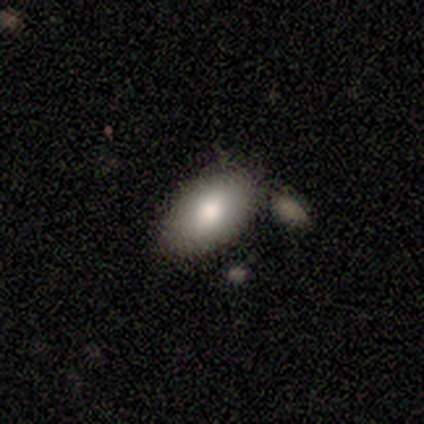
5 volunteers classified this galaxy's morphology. type=smooth (80%); roundness=in between (100%); merging=none (40%).